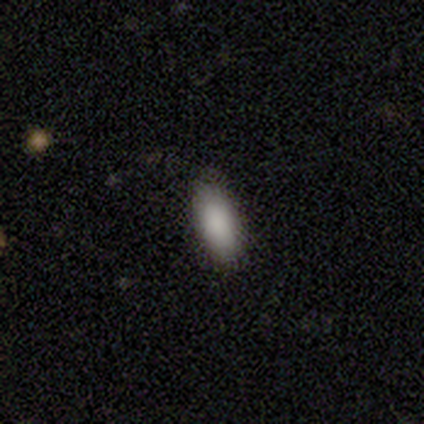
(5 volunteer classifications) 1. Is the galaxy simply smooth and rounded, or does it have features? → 100% smooth, 0% featured or disk, 0% star or artifact.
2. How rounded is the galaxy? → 100% in between, 0% round, 0% cigar-shaped.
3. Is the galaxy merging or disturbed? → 100% none, 0% minor disturbance, 0% major disturbance, 0% merger.